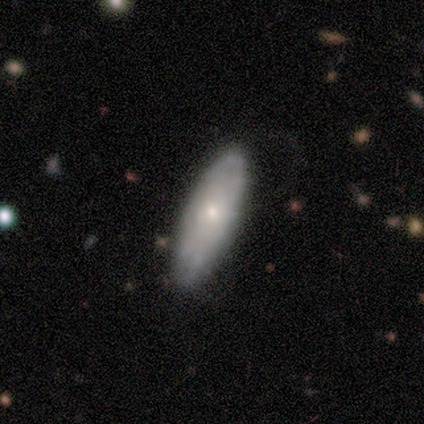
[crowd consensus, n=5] This appears to be a smooth galaxy with no disk features (80%) that is in between round and cigar-shaped (50%). Merging: none (50%).